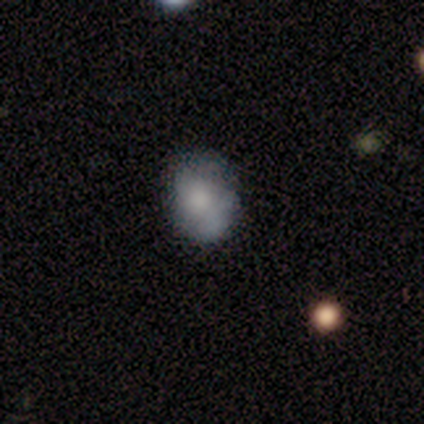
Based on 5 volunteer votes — Morphology: type=featured or disk (60%); edge-on=no (100%); bar=no (67%); spiral arms=no (67%); bulge=dominant (33%, tied with large and moderate); merging=none (40%, tied with minor disturbance).